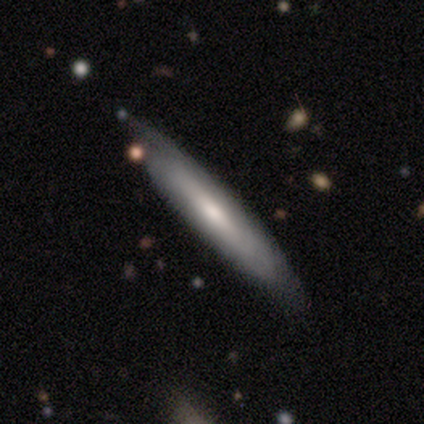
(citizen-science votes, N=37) Smooth or featured? smooth (51%)
How rounded? cigar-shaped (84%)
Merging? none (83%)